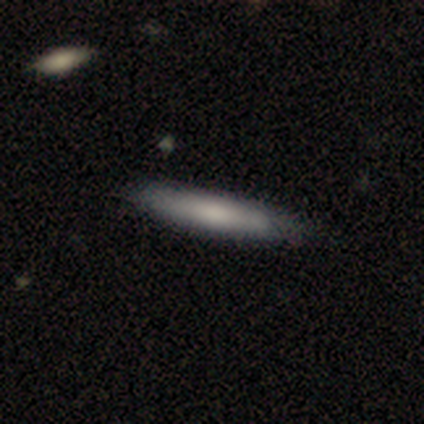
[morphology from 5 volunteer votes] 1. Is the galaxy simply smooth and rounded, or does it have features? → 40% smooth (tied), 40% featured or disk (tied), 20% star or artifact.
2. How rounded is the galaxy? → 100% cigar-shaped, 0% round, 0% in between.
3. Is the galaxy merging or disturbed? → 100% none, 0% minor disturbance, 0% major disturbance, 0% merger.